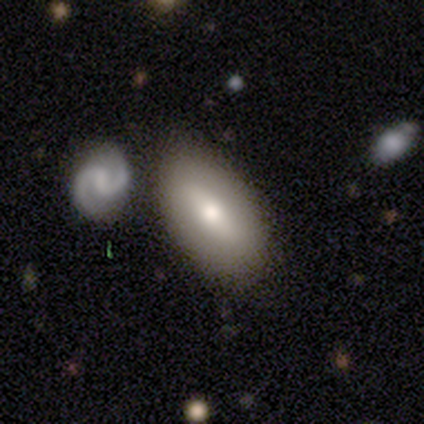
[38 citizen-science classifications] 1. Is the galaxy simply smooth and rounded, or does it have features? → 63% smooth, 26% featured or disk, 11% star or artifact.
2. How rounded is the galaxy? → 92% in between, 4% round, 4% cigar-shaped.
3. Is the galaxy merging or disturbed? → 62% none, 21% merger, 15% minor disturbance, 3% major disturbance.